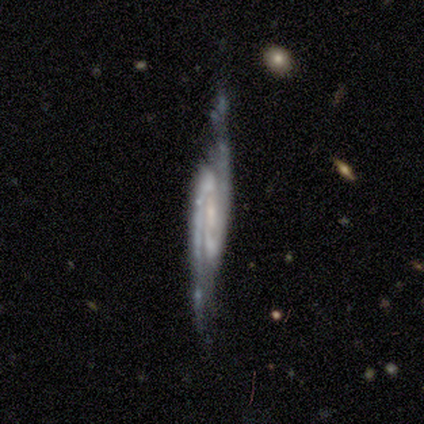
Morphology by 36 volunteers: Overall: featured or disk (89%). Edge-on disk: no (78%). Bar: strong (40%, tied with weak). Spiral arms: yes (100%). Spiral arm count: 2 (100%). Spiral winding: medium (60%; tight 24%). Bulge size: small (48%; moderate 28%). Merging: none (69%).